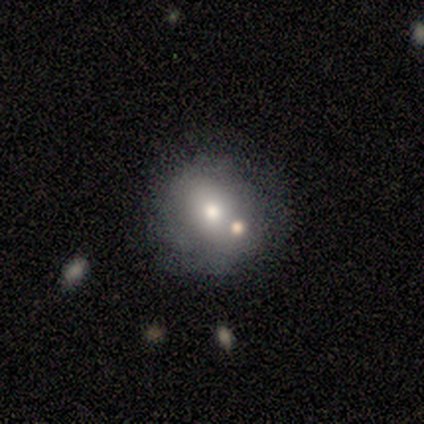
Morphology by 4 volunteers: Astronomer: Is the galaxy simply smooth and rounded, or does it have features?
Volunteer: smooth — 75%.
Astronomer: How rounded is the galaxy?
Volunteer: round — 67%.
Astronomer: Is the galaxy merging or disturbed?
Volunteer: none — 50%.